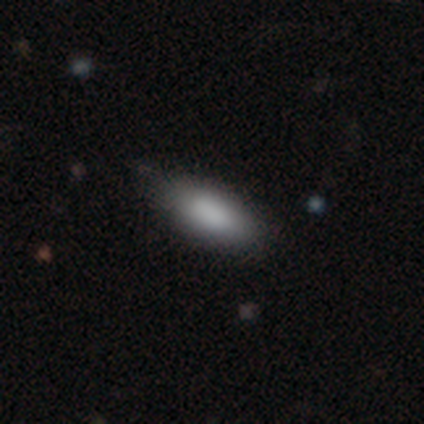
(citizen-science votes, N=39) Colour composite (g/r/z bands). It shows a smooth galaxy with no disk features (87%) that is in between round and cigar-shaped (94%). Merging: none (58%).